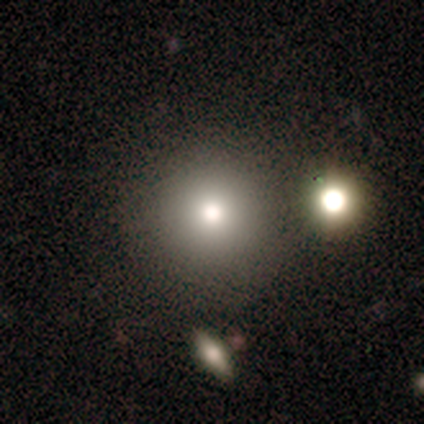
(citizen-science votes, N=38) Smooth or featured? smooth (84%)
How rounded? round (97%)
Merging? none (80%)